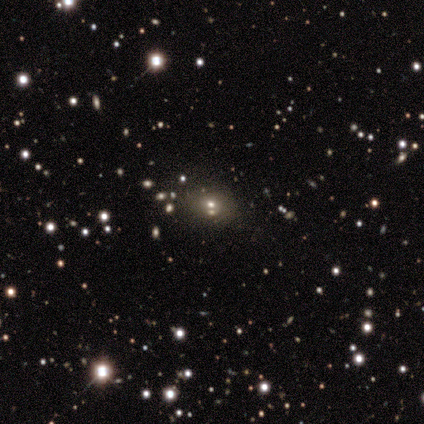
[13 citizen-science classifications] A smooth galaxy with no disk features (46%, tied with star or artifact) that is round (67%). Merging: none (43%, tied with merger).